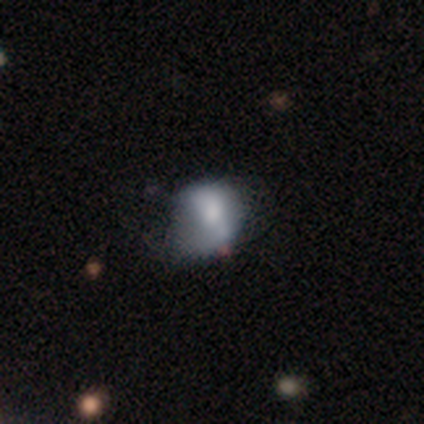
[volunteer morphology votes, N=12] smooth_or_featured: smooth (p=0.50) [alt: featured or disk p=0.42]
how_rounded: round (p=0.50) [alt: in between p=0.33]
merging: none (p=0.36) [tied with: minor disturbance p=0.36]